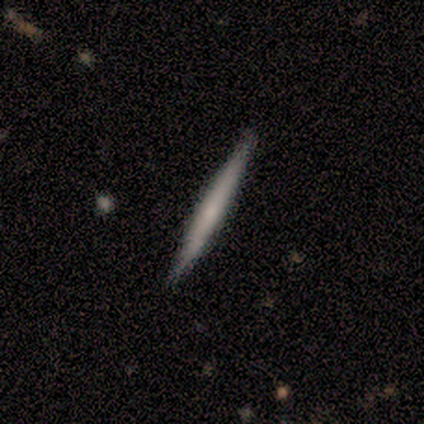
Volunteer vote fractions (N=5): Q: Smooth or featured?
A: featured or disk (60%); runner-up: smooth (40%)
Q: Edge-on disk?
A: yes (100%)
Q: Edge-on bulge?
A: none (67%); runner-up: rounded (33%)
Q: Merging?
A: none (100%)